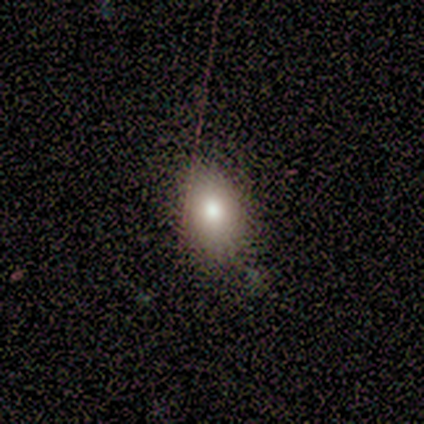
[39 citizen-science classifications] A smooth galaxy with no disk features (74%) that is in between round and cigar-shaped (69%).

Vote fractions:
- Smooth or featured? smooth: 74% / featured or disk: 23% / star or artifact: 3%
- How rounded? in between: 69% / round: 31% / cigar-shaped: 0%
- Merging? none: 50% / minor disturbance: 8% / major disturbance: 3% / merger: 0%